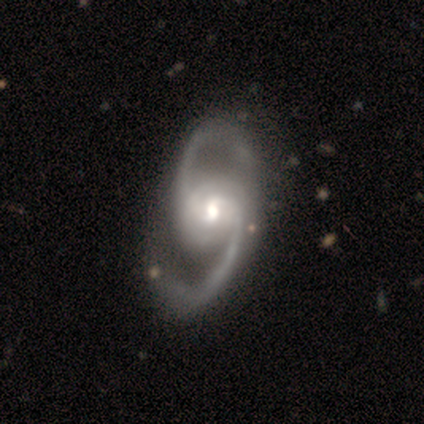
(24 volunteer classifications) This appears to be a featured or disk galaxy (92%) with no bar (55%), 2 (91%) medium (50%) spiral arms (100%) and a moderate central bulge (64%). Merging: none (55%).